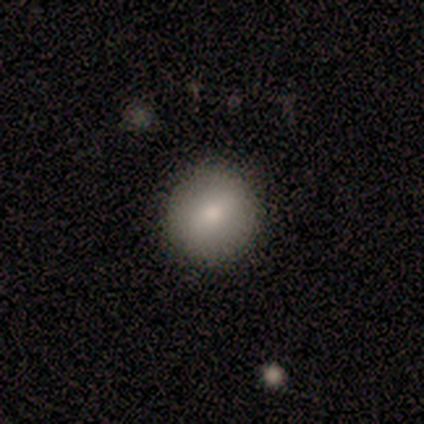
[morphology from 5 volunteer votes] Smooth or featured: smooth — 60% (featured or disk — 20%)
How rounded: round — 100%
Merging: none — 100%